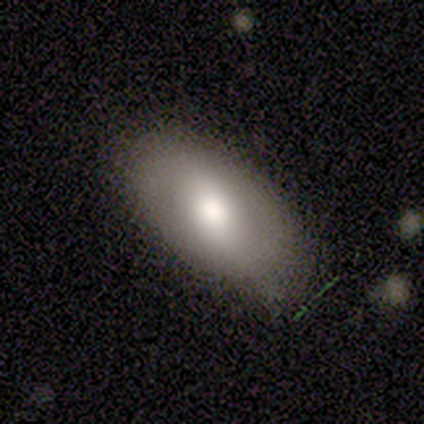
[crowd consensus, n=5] Volunteers were most divided on "smooth or featured" (2-way tie): smooth: 40%, featured or disk: 40%, star or artifact: 20%. More confident: how rounded — in between (100%); merging — none (100%).